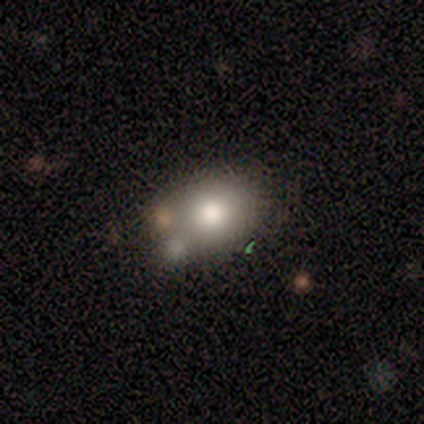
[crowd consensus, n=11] smooth 55%, featured or disk 36%, star or artifact 9%. Down the decision tree: how rounded — in between (67%); merging — none (60%).